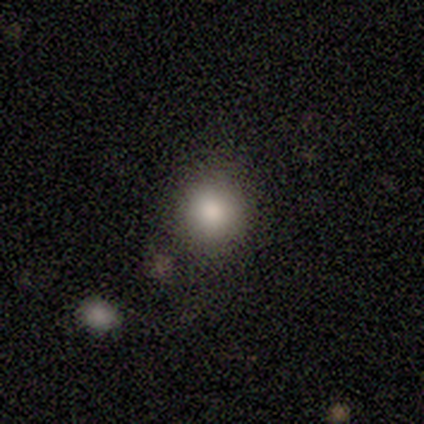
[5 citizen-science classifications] This appears to be a smooth galaxy with no disk features (60%) that is round (67%). Merging: none (80%).